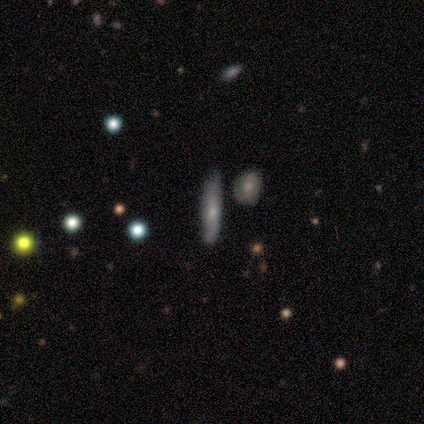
Smooth or featured? 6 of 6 (100%) said featured or disk. Edge-on disk? 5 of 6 (83%) said yes. Edge-on bulge? 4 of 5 (80%) said rounded. Merging? 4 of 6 (67%) said none.